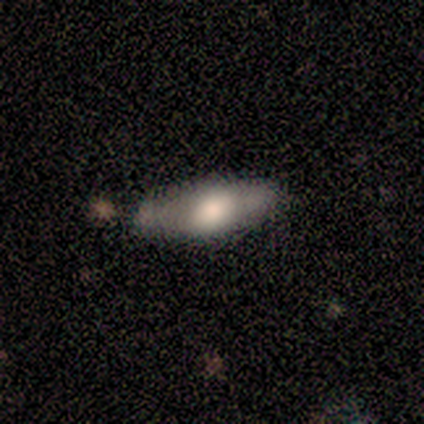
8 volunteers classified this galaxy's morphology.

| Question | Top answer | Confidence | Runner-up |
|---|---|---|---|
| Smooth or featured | smooth | 62% | featured or disk (25%) |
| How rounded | in between | 80% | cigar-shaped (20%) |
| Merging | none | 43% | tied: minor disturbance (43%) |